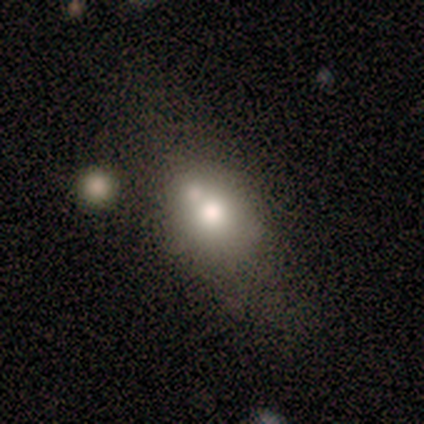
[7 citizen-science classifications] Smooth or featured: smooth — 71% (featured or disk — 14%)
How rounded: in between — 60% (round — 40%)
Merging: none — 67% (minor disturbance — 17%)